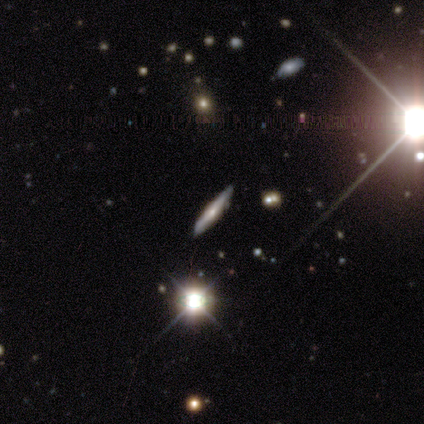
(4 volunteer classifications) Smooth or featured? featured or disk (75%)
Edge-on disk? yes (100%)
Edge-on bulge? rounded (67%)
Merging? none (100%)